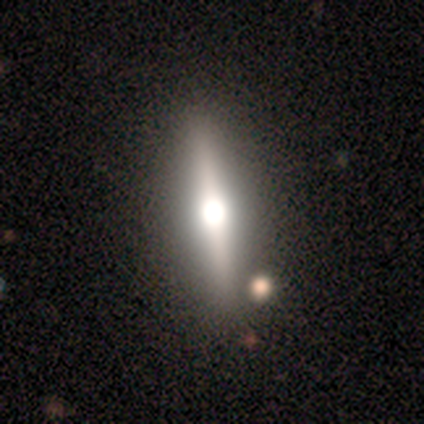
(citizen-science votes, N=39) This appears to be a featured or disk galaxy (69%) viewed edge-on (93%) with a rounded central bulge (96%). Merging: none (94%).